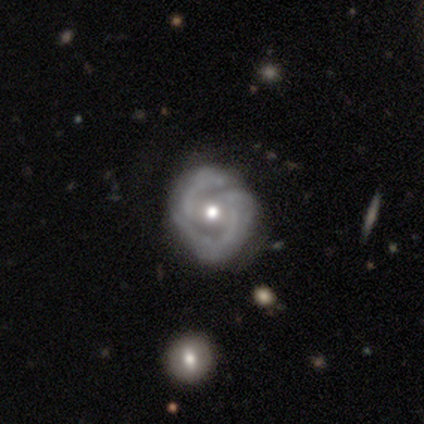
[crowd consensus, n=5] Q: Smooth or featured?
A: featured or disk (100%)
Q: Edge-on disk?
A: no (100%)
Q: Bar?
A: no (60%); runner-up: strong (20%)
Q: Spiral arms?
A: yes (60%); runner-up: no (40%)
Q: Spiral winding?
A: tight (33%); tied with: medium (33%); loose (33%)
Q: Spiral arm count?
A: 2 (67%); runner-up: 4 (33%)
Q: Bulge size?
A: moderate (80%); runner-up: small (20%)
Q: Merging?
A: none (100%)